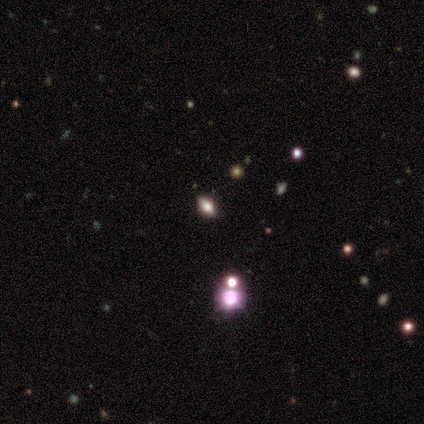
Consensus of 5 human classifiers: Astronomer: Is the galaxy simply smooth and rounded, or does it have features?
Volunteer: smooth — 80%.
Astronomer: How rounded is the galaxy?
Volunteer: in between — 75%.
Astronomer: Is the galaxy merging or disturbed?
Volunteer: none — 60%.